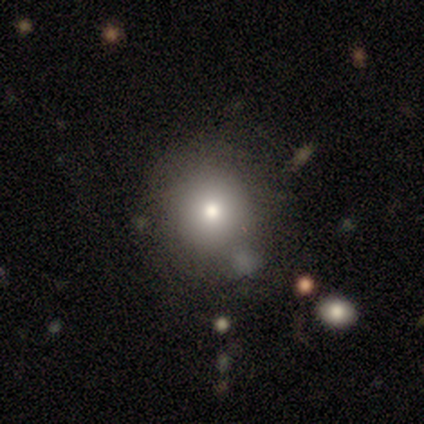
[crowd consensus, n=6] Smooth or featured? smooth (83%)
How rounded? round (100%)
Merging? none (80%)